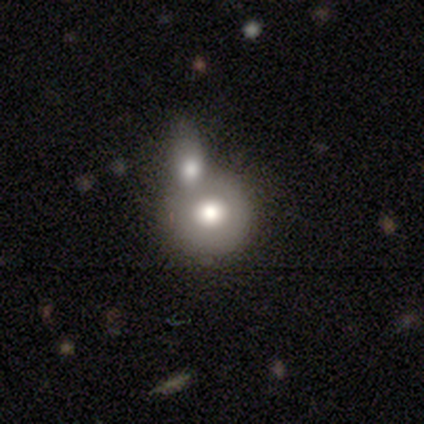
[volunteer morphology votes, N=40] This appears to be a smooth galaxy with no disk features (65%) that is round (85%). Merging: merger (49%).